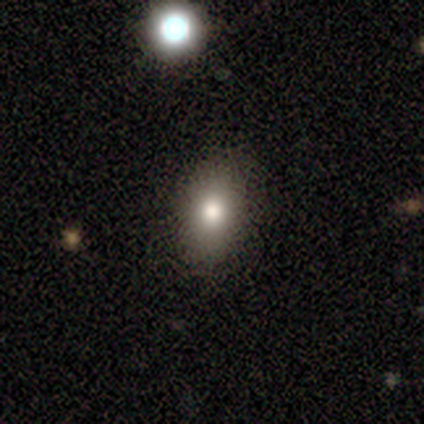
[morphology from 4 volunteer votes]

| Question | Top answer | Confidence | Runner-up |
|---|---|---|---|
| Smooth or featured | smooth | 50% | tied: featured or disk (50%) |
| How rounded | in between | 100% | — |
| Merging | none | 100% | — |